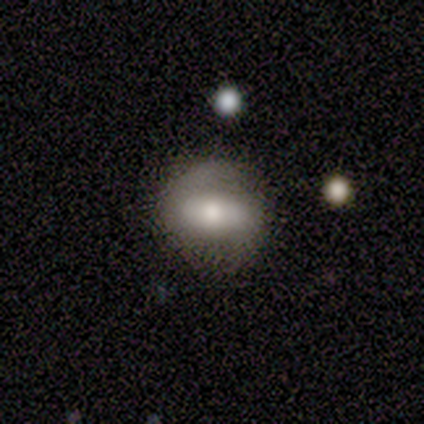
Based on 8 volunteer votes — smooth_or_featured: smooth (p=0.75) [alt: featured or disk p=0.25]
how_rounded: round (p=0.50) [tied with: in between p=0.50]
merging: none (p=0.62) [alt: minor disturbance p=0.38]